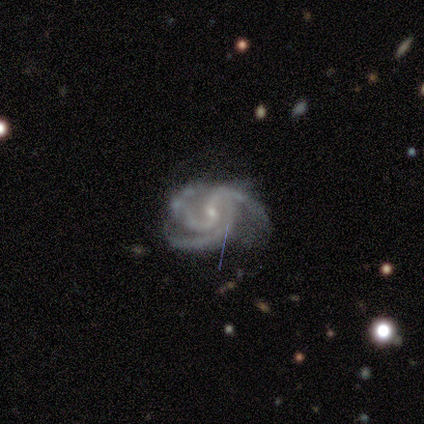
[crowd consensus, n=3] A featured or disk galaxy (100%) with no bar (67%), 3 (67%) medium (67%) spiral arms (100%) and a small central bulge (100%).

Vote fractions:
- Smooth or featured? featured or disk: 100% / smooth: 0% / star or artifact: 0%
- Edge-on disk? no: 100% / yes: 0%
- Bar? no: 67% / weak: 33% / strong: 0%
- Spiral arms? yes: 100% / no: 0%
- Spiral winding? medium: 67% / tight: 33% / loose: 0%
- Spiral arm count? 3: 67% / 2: 33% / 1: 0% / 4: 0% / more than 4: 0% / can't tell: 0%
- Bulge size? small: 100% / dominant: 0% / large: 0% / moderate: 0% / none: 0%
- Merging? none: 100% / minor disturbance: 0% / major disturbance: 0% / merger: 0%